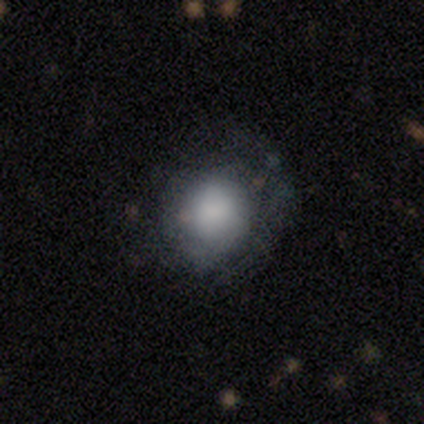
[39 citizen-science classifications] A smooth galaxy with no disk features (59%) that is round (87%). Merging: none (40%).